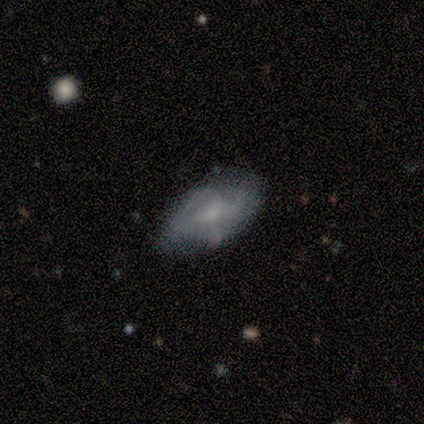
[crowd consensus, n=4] Smooth or featured? featured or disk (75%)
Edge-on disk? no (67%)
Bar? weak (50%, tied with no)
Spiral arms? yes (100%)
Spiral winding? medium (100%)
Spiral arm count? 1 (50%, tied with can't tell)
Bulge size? moderate (50%, tied with small)
Merging? none (67%)